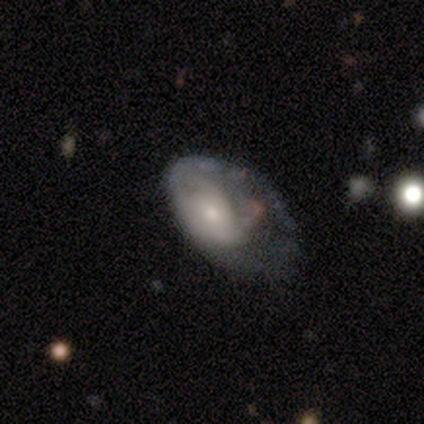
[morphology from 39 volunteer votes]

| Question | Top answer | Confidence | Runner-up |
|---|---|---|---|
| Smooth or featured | featured or disk | 62% | smooth (28%) |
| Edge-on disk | no | 100% | — |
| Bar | no | 83% | weak (17%) |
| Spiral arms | yes | 54% | no (46%) |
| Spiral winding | medium | 38% | tight (31%) |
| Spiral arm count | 1 | 31% | tied: 2 (31%), can't tell (31%) |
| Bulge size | small | 50% | moderate (38%) |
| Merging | major disturbance | 46% | none (29%) |